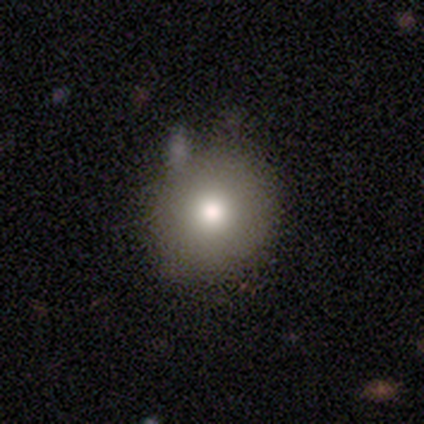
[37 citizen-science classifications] This is clearly a smooth galaxy (81%). How rounded: clearly round (83%). Merging: likely none (77%).